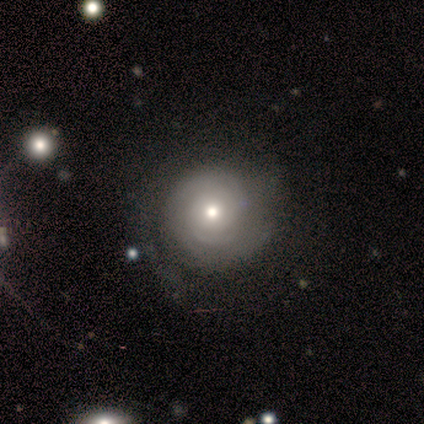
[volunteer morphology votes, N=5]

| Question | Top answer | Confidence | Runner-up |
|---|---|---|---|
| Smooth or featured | featured or disk | 100% | — |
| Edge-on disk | no | 100% | — |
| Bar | no | 100% | — |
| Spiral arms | yes | 60% | no (40%) |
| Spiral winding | tight | 100% | — |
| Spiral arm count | can't tell | 67% | 2 (33%) |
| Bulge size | moderate | 60% | large (40%) |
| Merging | none | 60% | minor disturbance (20%) |